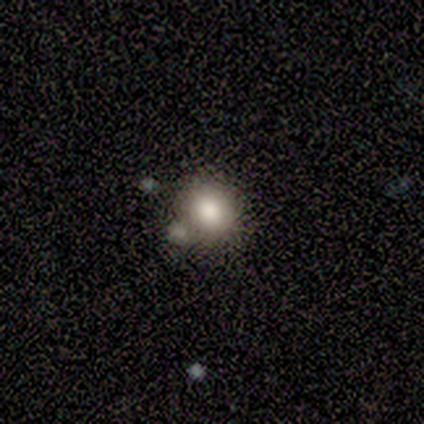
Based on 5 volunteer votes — smooth-or-featured: smooth: 60% | featured or disk: 20% | star or artifact: 20%
  how-rounded: round: 67% | in between: 33% | cigar-shaped: 0%
  merging: merger: 75% | minor disturbance: 25% | none: 0% | major disturbance: 0%